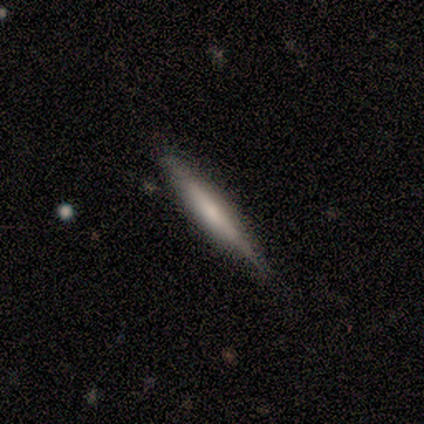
Q: Smooth or featured?
A: smooth (60%); runner-up: featured or disk (40%)
Q: How rounded?
A: cigar-shaped (67%); runner-up: in between (33%)
Q: Merging?
A: none (60%); runner-up: minor disturbance (20%)